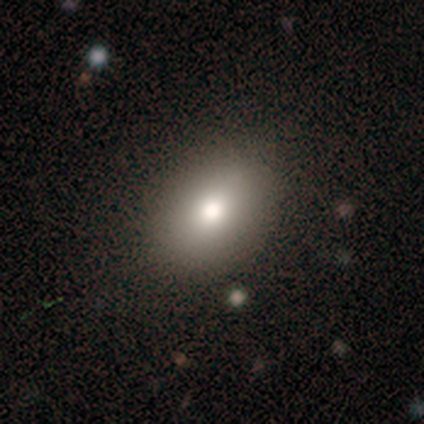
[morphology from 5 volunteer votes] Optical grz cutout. It shows a smooth galaxy with no disk features (100%) that is in between round and cigar-shaped (100%). Merging: none (80%).